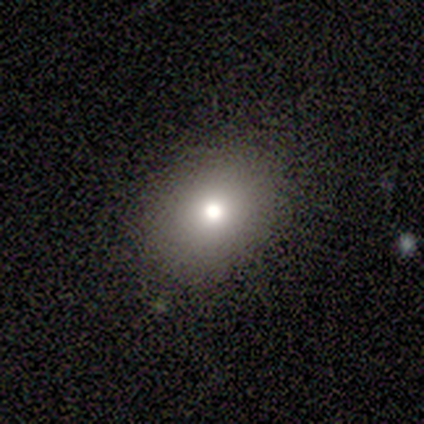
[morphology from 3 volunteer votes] Smooth or featured? 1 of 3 (33%, tied with featured or disk and star or artifact) said smooth. How rounded? 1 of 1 (100%) said in between. Merging? 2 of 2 (100%) said none.